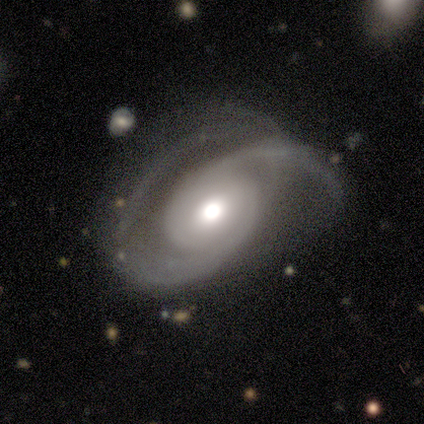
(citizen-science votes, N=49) Smooth or featured: featured or disk — 86% (smooth — 8%)
Edge-on disk: no — 100%
Bar: no — 71% (weak — 24%)
Spiral arms: yes — 93% (no — 7%)
Spiral winding: medium — 59% (loose — 23%)
Spiral arm count: 2 — 92% (can't tell — 5%)
Bulge size: moderate — 60% (large — 31%)
Merging: none — 41% (major disturbance — 39%)